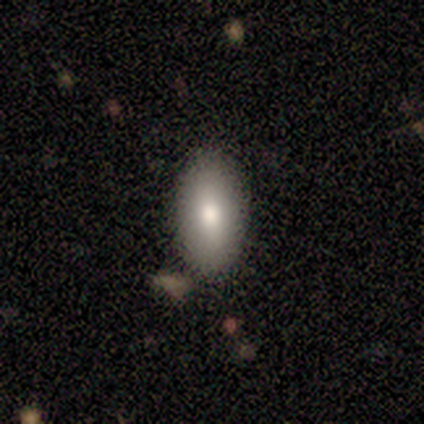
A smooth galaxy with no disk features (100%) that is in between round and cigar-shaped (75%). Merging: none (100%).